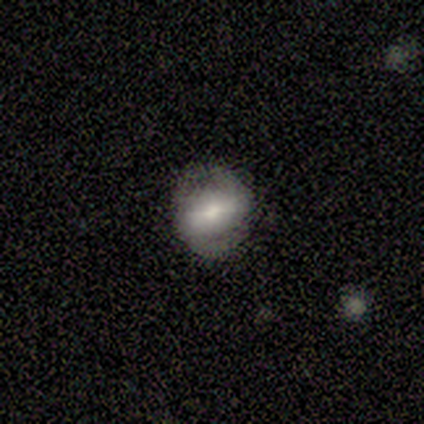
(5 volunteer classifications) Smooth or featured? featured or disk (80%)
Edge-on disk? no (100%)
Bar? strong (50%)
Spiral arms? no (75%)
Bulge size? small (50%)
Merging? none (75%)